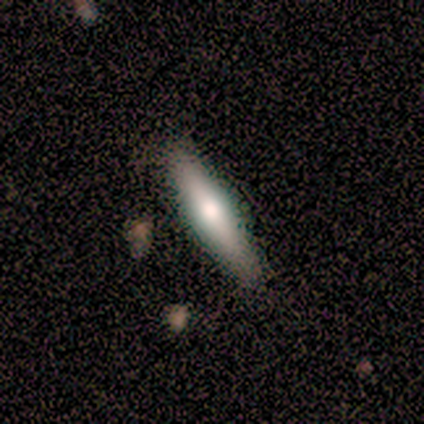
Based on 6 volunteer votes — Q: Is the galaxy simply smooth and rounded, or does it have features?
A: smooth — 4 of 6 (67%).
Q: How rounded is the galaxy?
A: cigar-shaped — 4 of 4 (100%).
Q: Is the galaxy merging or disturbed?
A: none — 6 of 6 (100%).